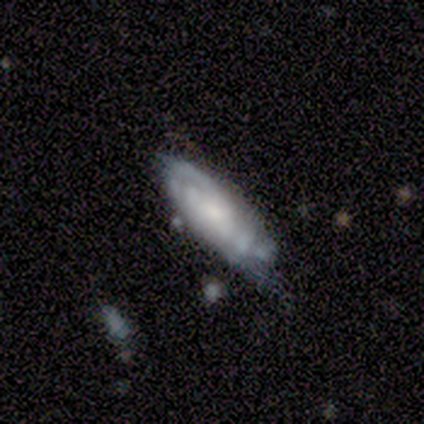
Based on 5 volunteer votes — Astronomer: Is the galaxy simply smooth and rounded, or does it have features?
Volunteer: featured or disk — 60% (runner-up: smooth, 40%).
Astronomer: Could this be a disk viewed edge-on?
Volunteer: no — 100%.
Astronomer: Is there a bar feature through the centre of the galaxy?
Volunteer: no — 67%.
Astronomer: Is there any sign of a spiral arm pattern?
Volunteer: yes — 100%.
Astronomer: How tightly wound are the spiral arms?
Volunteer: tight — 100%.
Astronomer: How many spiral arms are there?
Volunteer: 1 — 33%, tied with 4 and can't tell at 33%.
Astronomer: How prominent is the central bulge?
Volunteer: small — 100%.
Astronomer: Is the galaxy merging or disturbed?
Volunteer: none — 60%.